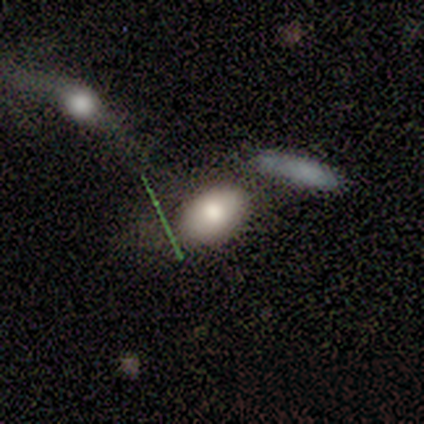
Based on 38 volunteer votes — smooth-or-featured: smooth: 79% | featured or disk: 16% | star or artifact: 5%
  how-rounded: in between: 90% | round: 10% | cigar-shaped: 0%
  merging: none: 50% | minor disturbance: 22% | merger: 22% | major disturbance: 6%